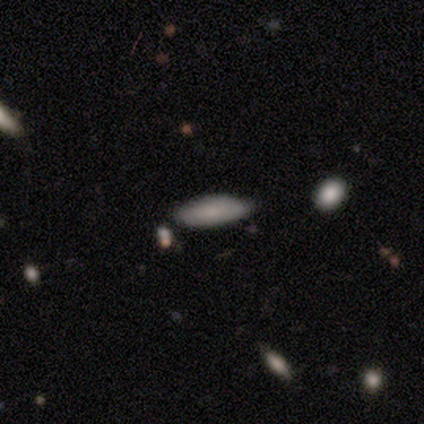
Smooth or featured? 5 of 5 (100%) said smooth. How rounded? 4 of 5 (80%) said in between. Merging? 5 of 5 (100%) said none.